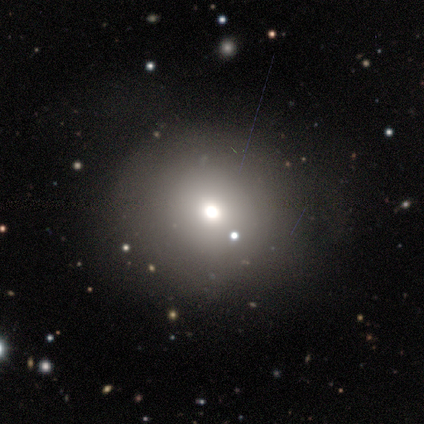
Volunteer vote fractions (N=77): Volunteers were most divided on "merging": none: 35%, minor disturbance: 11%, major disturbance: 4%, merger: 4%. More confident: how rounded — round (89%); smooth or featured — smooth (61%).